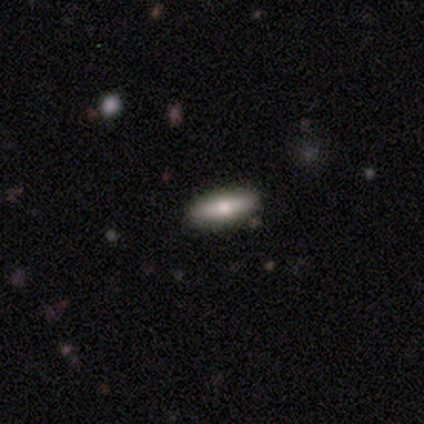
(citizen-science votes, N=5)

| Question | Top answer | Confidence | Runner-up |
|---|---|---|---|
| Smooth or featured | featured or disk | 60% | smooth (40%) |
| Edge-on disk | yes | 100% | — |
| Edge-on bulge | rounded | 100% | — |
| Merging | none | 80% | minor disturbance (20%) |